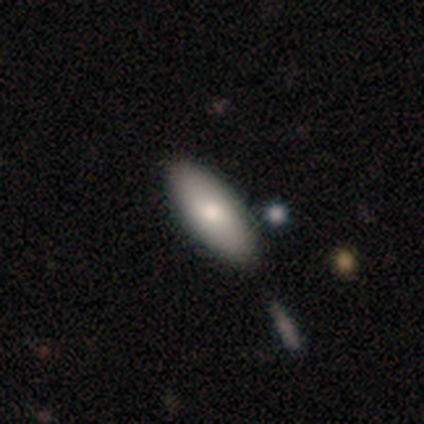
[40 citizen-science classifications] Overall: smooth (85%). How rounded: in between (76%). Merging: none (64%).